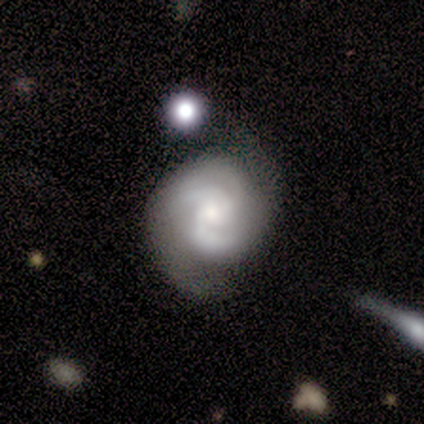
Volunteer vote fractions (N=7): smooth-or-featured: featured or disk: 100% | smooth: 0% | star or artifact: 0%
  disk-edge-on: no: 100% | yes: 0%
    bar: no: 57% | weak: 43% | strong: 0%
    has-spiral-arms: yes: 100% | no: 0%
      spiral-winding: medium: 71% | tight: 29% | loose: 0%
      spiral-arm-count: 2: 100% | 1: 0% | 3: 0% | 4: 0% | more than 4: 0% | can't tell: 0%
    bulge-size: small: 57% | moderate: 43% | dominant: 0% | large: 0% | none: 0%
  merging: none: 43% | minor disturbance: 29% | major disturbance: 14% | merger: 14%